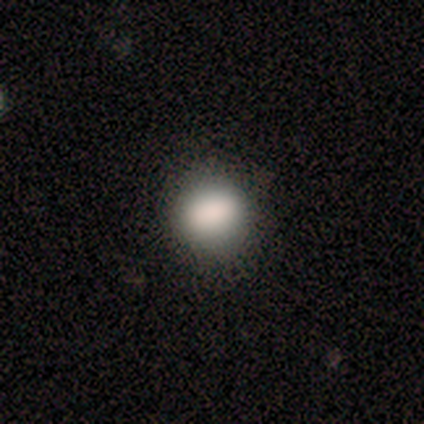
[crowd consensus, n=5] This is clearly a smooth galaxy (80%). How rounded: likely in between (75%). Merging: likely none (75%).